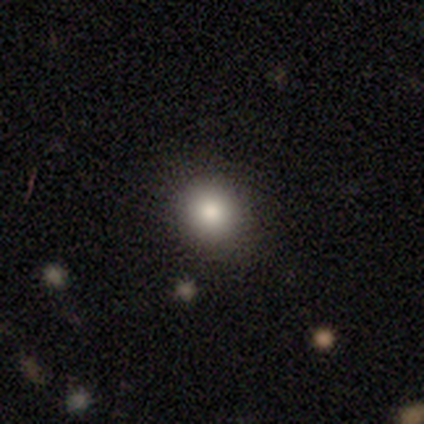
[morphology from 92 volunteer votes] Smooth or featured? 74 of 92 (80%) said smooth. How rounded? 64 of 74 (86%) said round. Merging? 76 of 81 (94%) said none.